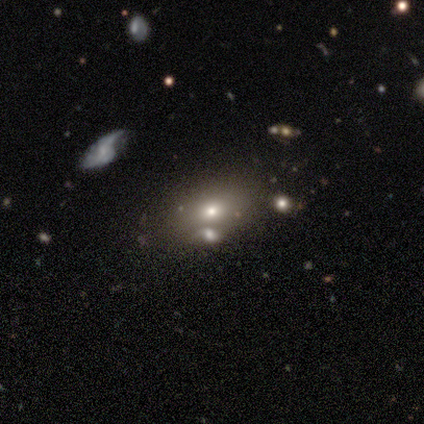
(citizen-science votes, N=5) smooth 60%, star or artifact 40%, featured or disk 0%. Down the decision tree: how rounded — in between (100%); merging — none (33%, tied with minor disturbance and merger).